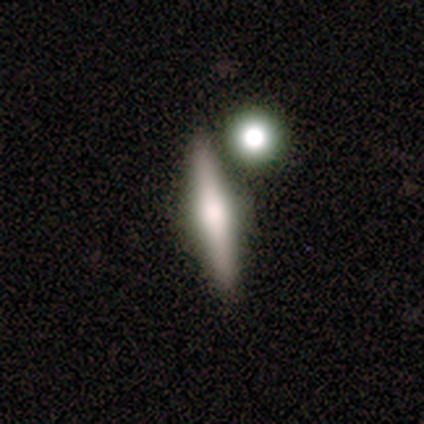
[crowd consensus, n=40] A featured or disk galaxy (50%) viewed edge-on (100%) with a rounded central bulge (75%).

Vote fractions:
- Smooth or featured? featured or disk: 50% / smooth: 38% / star or artifact: 12%
- Edge-on disk? yes: 100% / no: 0%
- Edge-on bulge? rounded: 75% / boxy: 20% / none: 5%
- Merging? none: 46% / merger: 37% / minor disturbance: 3% / major disturbance: 0%